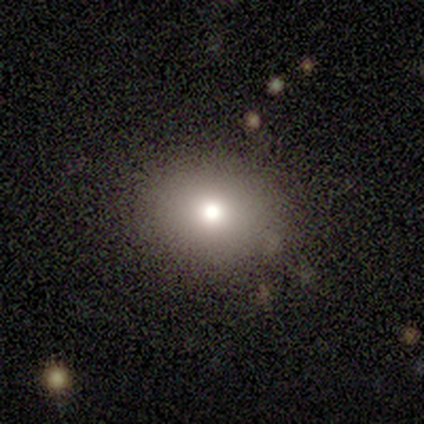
A smooth galaxy with no disk features (100%) that is round (70%). Merging: none (70%).